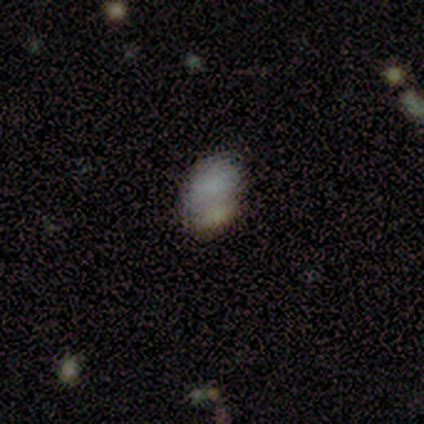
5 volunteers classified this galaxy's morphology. Smooth or featured? 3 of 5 (60%) said smooth. How rounded? 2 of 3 (67%) said in between. Merging? 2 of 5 (40%) said none.